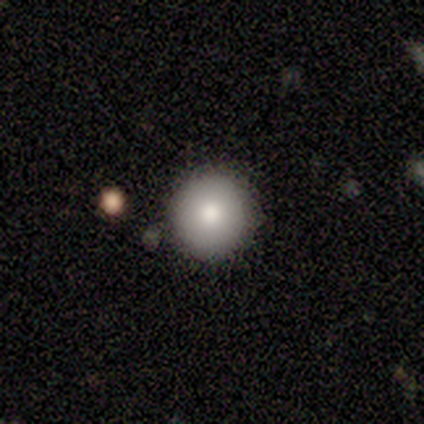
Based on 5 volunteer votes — smooth_or_featured: smooth (p=0.60) [alt: featured or disk p=0.40]
how_rounded: round (p=1.00)
merging: none (p=0.80) [alt: minor disturbance p=0.20]